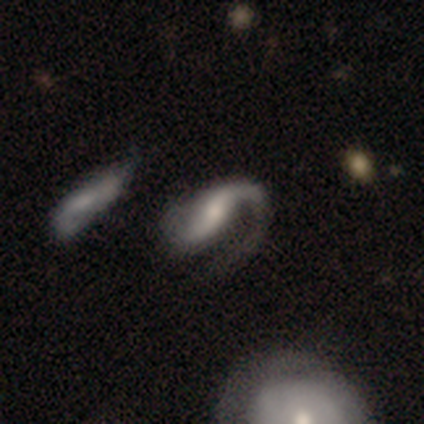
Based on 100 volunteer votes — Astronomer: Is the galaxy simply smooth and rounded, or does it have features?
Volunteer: featured or disk — 90%.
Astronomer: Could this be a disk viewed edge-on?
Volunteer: no — 98%.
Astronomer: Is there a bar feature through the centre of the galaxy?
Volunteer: weak — 39% (runner-up: no, 32%).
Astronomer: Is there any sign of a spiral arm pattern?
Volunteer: yes — 94%.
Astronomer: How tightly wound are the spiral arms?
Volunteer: loose — 48% (runner-up: medium, 40%).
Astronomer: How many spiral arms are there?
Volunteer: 2 — 64%.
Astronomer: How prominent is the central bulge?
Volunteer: moderate — 42% (runner-up: small, 38%).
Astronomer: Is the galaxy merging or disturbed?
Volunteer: major disturbance — 39% (runner-up: none, 35%).